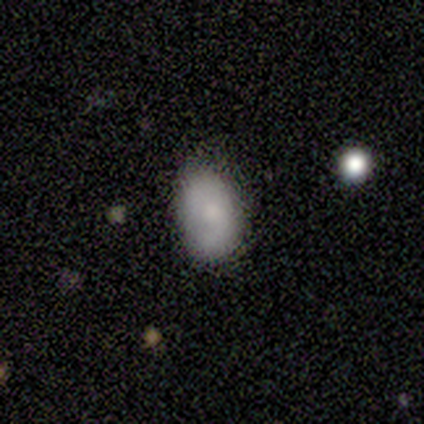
Smooth or featured? 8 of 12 (67%) said smooth. How rounded? 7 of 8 (88%) said in between. Merging? 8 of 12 (67%) said none.